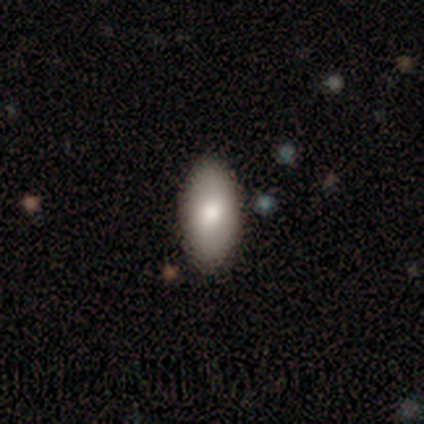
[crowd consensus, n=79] A smooth galaxy with no disk features (85%) that is in between round and cigar-shaped (94%).

Vote fractions:
- Smooth or featured? smooth: 85% / featured or disk: 11% / star or artifact: 4%
- How rounded? in between: 94% / cigar-shaped: 4% / round: 1%
- Merging? none: 58% / minor disturbance: 5% / major disturbance: 3% / merger: 0%